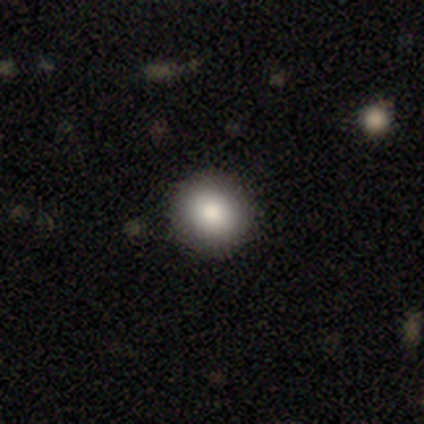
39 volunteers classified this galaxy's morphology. Smooth or featured? 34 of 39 (87%) said smooth. How rounded? 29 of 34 (85%) said round. Merging? 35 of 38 (92%) said none.